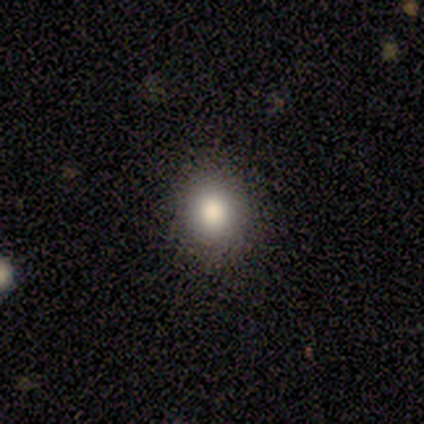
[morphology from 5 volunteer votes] A star or artifact, not a galaxy (60%).